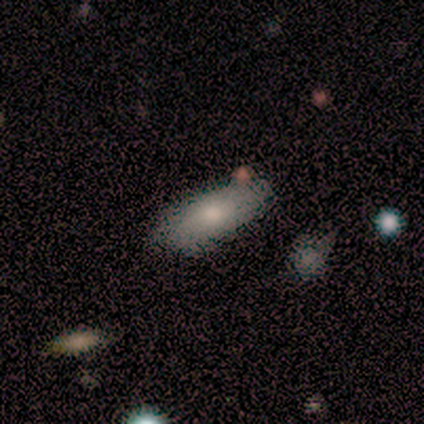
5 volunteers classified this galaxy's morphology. Q: Smooth or featured?
A: smooth (80%); runner-up: featured or disk (20%)
Q: How rounded?
A: in between (100%)
Q: Merging?
A: none (40%); tied with: minor disturbance (40%)